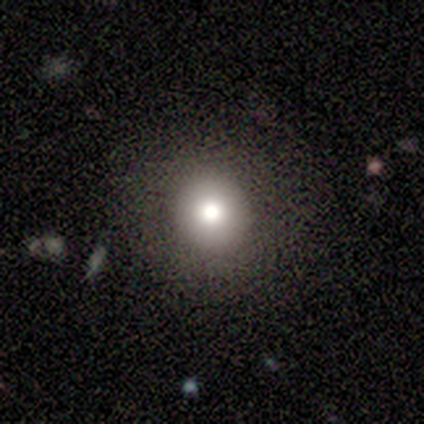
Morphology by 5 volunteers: Smooth or featured?
  - smooth: 100% *
  - featured or disk: 0%
  - star or artifact: 0%
How rounded?
  - round: 100% *
  - in between: 0%
  - cigar-shaped: 0%
Merging?
  - none: 100% *
  - minor disturbance: 0%
  - major disturbance: 0%
  - merger: 0%